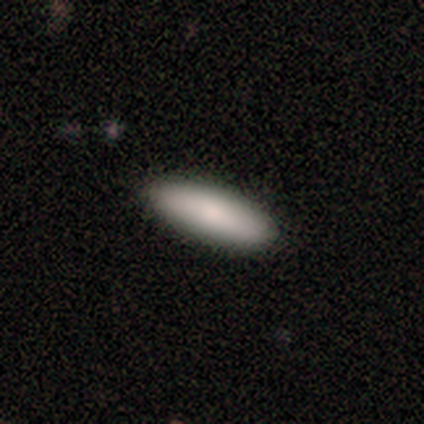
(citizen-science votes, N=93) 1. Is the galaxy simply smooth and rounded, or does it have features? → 83% smooth, 13% featured or disk, 4% star or artifact.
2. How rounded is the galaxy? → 62% in between, 36% cigar-shaped, 1% round.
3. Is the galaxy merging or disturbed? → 92% none, 8% minor disturbance, 0% major disturbance, 0% merger.